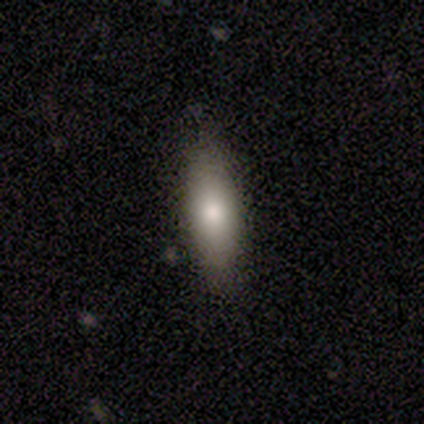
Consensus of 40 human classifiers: A smooth galaxy with no disk features (68%) that is in between round and cigar-shaped (56%). Merging: none (63%).